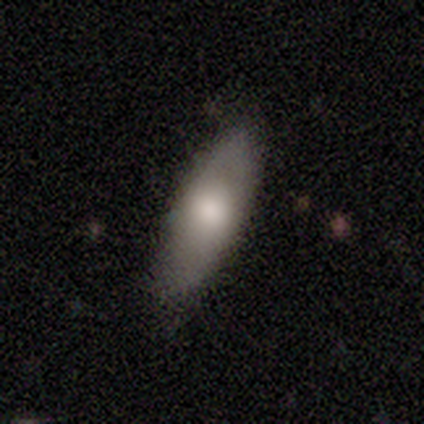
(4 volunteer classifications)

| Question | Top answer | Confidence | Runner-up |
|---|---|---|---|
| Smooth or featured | smooth | 75% | featured or disk (25%) |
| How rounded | in between | 100% | — |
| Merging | none | 75% | minor disturbance (25%) |